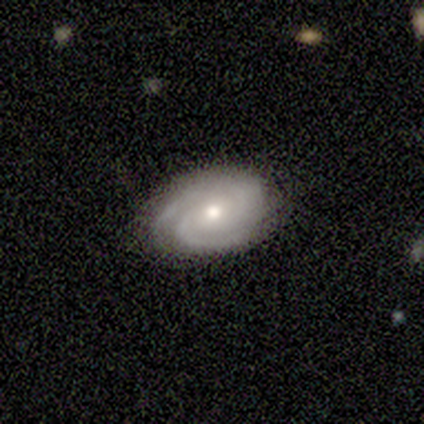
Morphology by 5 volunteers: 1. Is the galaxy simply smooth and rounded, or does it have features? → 100% featured or disk, 0% smooth, 0% star or artifact.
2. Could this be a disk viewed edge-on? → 100% no, 0% yes.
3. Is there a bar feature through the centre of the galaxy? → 80% no, 20% strong, 0% weak.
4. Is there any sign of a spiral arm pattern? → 100% yes, 0% no.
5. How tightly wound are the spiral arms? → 60% tight, 40% medium, 0% loose.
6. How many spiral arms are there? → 100% 2, 0% 1, 0% 3, 0% 4, 0% more than 4, 0% can't tell.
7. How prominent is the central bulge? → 100% moderate, 0% dominant, 0% large, 0% small, 0% none.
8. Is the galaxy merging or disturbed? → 80% none, 20% minor disturbance, 0% major disturbance, 0% merger.